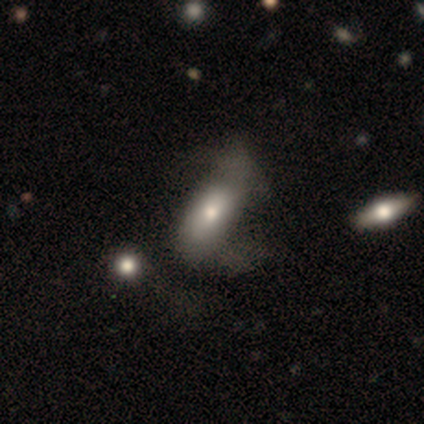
This appears to be a smooth galaxy with no disk features (60%) that is in between round and cigar-shaped (67%). Merging: none (60%).